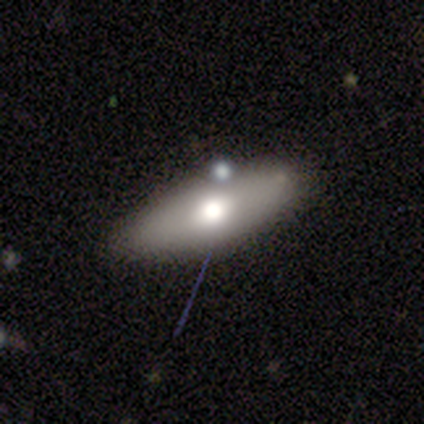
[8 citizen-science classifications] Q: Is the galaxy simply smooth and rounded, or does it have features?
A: smooth — 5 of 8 (62%).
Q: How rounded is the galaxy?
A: in between — 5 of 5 (100%).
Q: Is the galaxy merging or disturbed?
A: none — 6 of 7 (86%).